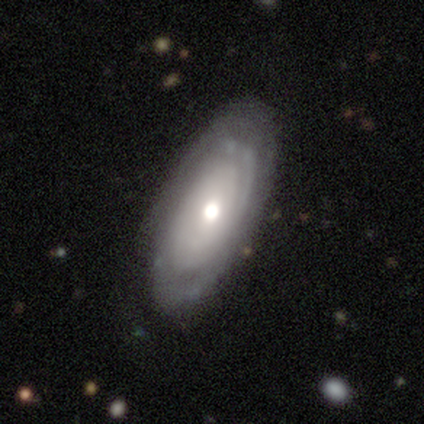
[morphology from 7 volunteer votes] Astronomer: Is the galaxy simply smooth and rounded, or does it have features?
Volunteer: featured or disk — 86%.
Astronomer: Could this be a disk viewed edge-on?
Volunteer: no — 100%.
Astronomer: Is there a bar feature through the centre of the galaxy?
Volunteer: no — 100%.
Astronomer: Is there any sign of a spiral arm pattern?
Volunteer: yes — 67%.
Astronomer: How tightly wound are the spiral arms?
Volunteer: tight — 50%.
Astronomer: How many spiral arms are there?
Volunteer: can't tell — 50%.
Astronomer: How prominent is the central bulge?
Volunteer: moderate — 50% (runner-up: small, 33%).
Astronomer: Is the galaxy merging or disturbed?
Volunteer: none — 71%.